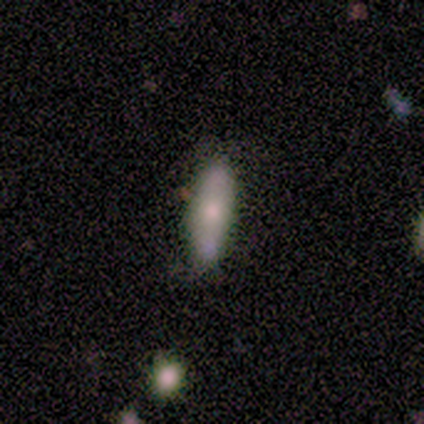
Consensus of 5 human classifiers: smooth_or_featured: featured or disk (p=0.80) [alt: smooth p=0.20]
disk_edge_on: no (p=0.75) [alt: yes p=0.25]
bar: no (p=1.00)
has_spiral_arms: no (p=1.00)
bulge_size: moderate (p=0.67) [alt: small p=0.33]
merging: none (p=1.00)